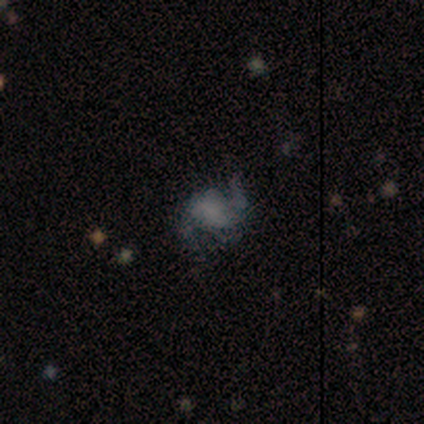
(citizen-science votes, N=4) This is possibly a star or artifact rather than a galaxy (50%).